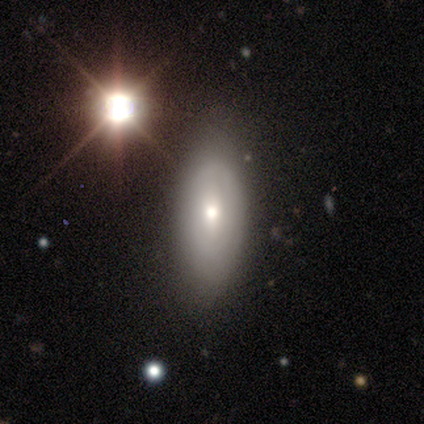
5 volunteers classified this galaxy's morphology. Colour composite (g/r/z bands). It shows a featured or disk galaxy (60%) with a strong bar (50%, tied with weak), loose (100%) spiral arms (50%, tied with no) and a small central bulge (100%). Merging: none (100%).